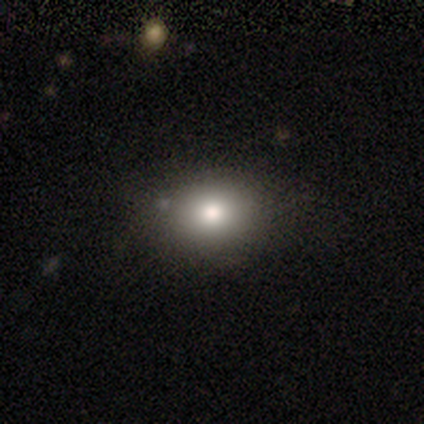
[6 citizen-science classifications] Volunteers were most divided on "how rounded": in between: 67%, round: 33%, cigar-shaped: 0%. More confident: smooth or featured — smooth (100%); merging — none (83%).